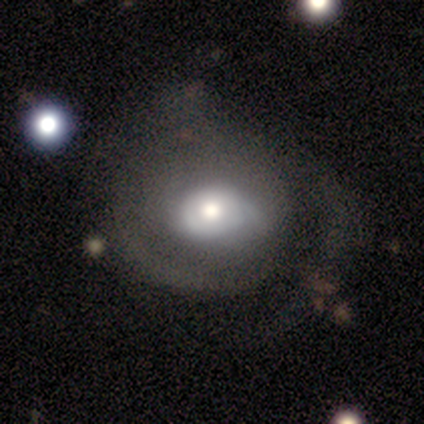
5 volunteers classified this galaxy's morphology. Smooth or featured: featured or disk — 100%
Edge-on disk: no — 100%
Bar: no — 80% (weak — 20%)
Spiral arms: no — 60% (yes — 40%)
Bulge size: moderate — 80% (large — 20%)
Merging: minor disturbance — 60% (none — 20%)